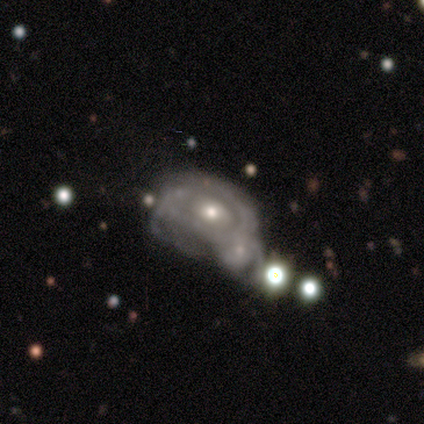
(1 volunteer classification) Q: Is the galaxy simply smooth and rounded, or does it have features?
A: featured or disk — 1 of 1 (100%).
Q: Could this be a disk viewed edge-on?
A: yes — 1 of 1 (100%).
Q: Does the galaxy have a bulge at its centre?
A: rounded — 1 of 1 (100%).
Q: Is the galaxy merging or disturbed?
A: merger — 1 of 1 (100%).